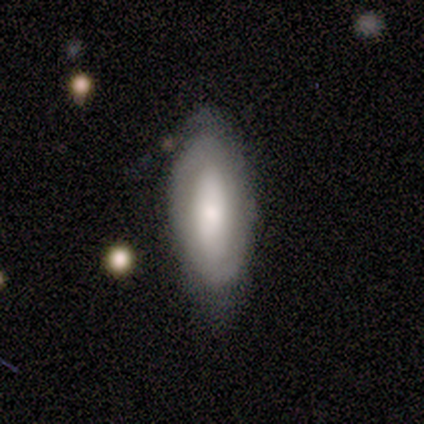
Volunteers were most divided on "bar" (3-way tie): strong: 33%, weak: 33%, no: 33%; "spiral arm count" (3-way tie): 1: 33%, 2: 33%, can't tell: 33%, 3: 0%, 4: 0%, more than 4: 0%; "bulge size" (3-way tie): large: 33%, moderate: 33%, small: 33%, dominant: 0%, none: 0%. More confident: spiral arms — yes (100%); edge-on disk — no (75%); merging — none (71%); spiral winding — medium (67%); smooth or featured — featured or disk (57%).